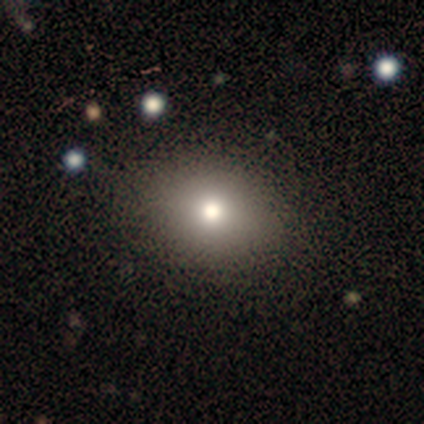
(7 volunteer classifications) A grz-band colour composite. It shows a smooth galaxy with no disk features (71%) that is in between round and cigar-shaped (60%). Merging: none (67%).